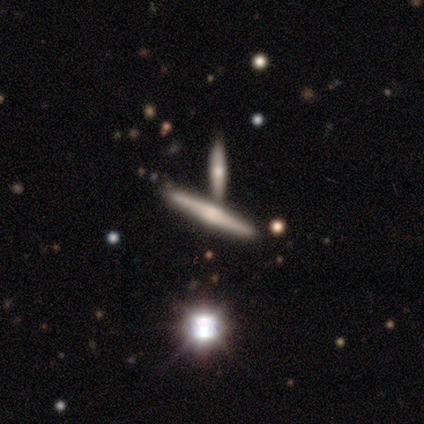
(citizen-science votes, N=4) A featured or disk galaxy (75%) viewed edge-on (100%) with a boxy central bulge (67%).

Vote fractions:
- Smooth or featured? featured or disk: 75% / smooth: 25% / star or artifact: 0%
- Edge-on disk? yes: 100% / no: 0%
- Edge-on bulge? boxy: 67% / rounded: 33% / none: 0%
- Merging? none: 75% / minor disturbance: 25% / major disturbance: 0% / merger: 0%